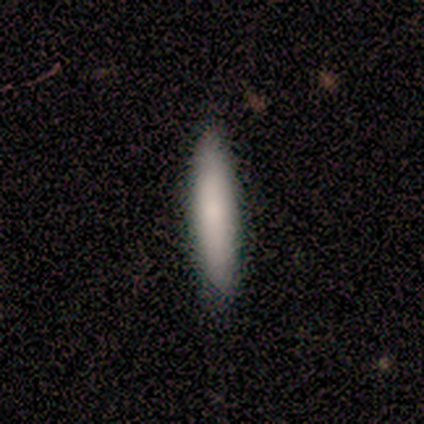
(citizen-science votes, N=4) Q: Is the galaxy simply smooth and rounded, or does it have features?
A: smooth — 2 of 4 (50%, tied with featured or disk).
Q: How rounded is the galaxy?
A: cigar-shaped — 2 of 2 (100%).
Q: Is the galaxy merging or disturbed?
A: none — 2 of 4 (50%, tied with minor disturbance).